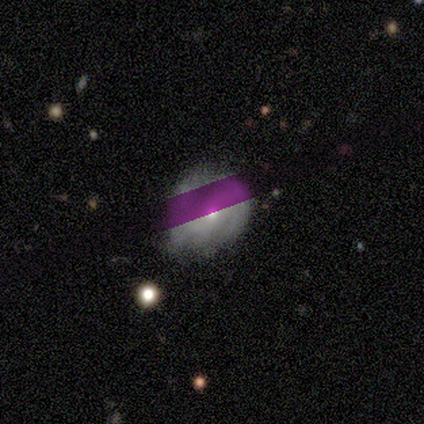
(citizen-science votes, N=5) This is likely a smooth galaxy (60%). How rounded: likely round (67%). Merging: possibly none (50%, tied with minor disturbance).